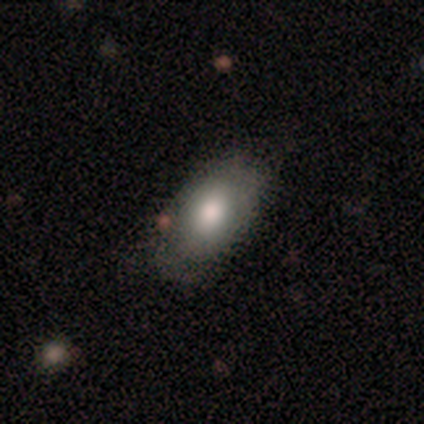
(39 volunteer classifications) Q: Smooth or featured?
A: smooth (74%); runner-up: featured or disk (13%)
Q: How rounded?
A: in between (97%); runner-up: cigar-shaped (3%)
Q: Merging?
A: none (68%); runner-up: minor disturbance (26%)